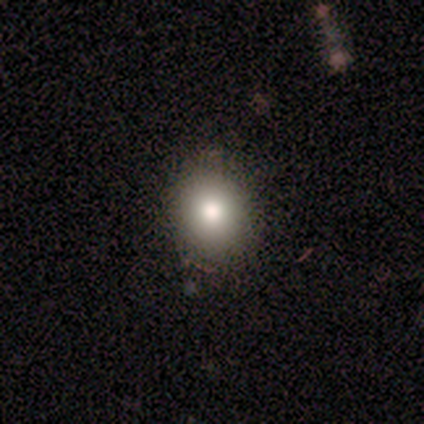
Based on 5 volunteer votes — Smooth or featured?
  - smooth: 80% *
  - featured or disk: 20%
  - star or artifact: 0%
How rounded?
  - round: 100% *
  - in between: 0%
  - cigar-shaped: 0%
Merging?
  - none: 60% *
  - minor disturbance: 40%
  - major disturbance: 0%
  - merger: 0%